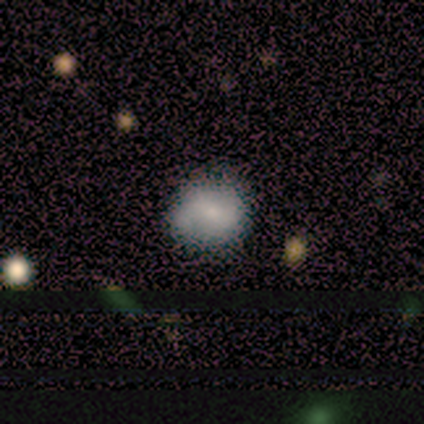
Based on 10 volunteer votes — Volunteers were most divided on "smooth or featured": smooth: 80%, featured or disk: 20%, star or artifact: 0%. More confident: how rounded — round (100%); merging — none (90%).